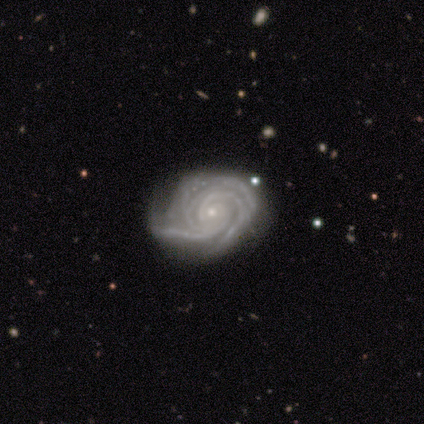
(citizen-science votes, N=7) Smooth or featured? featured or disk (100%)
Edge-on disk? no (100%)
Bar? no (86%)
Spiral arms? yes (100%)
Spiral winding? tight (86%)
Spiral arm count? 3 (71%)
Bulge size? small (100%)
Merging? minor disturbance (71%)